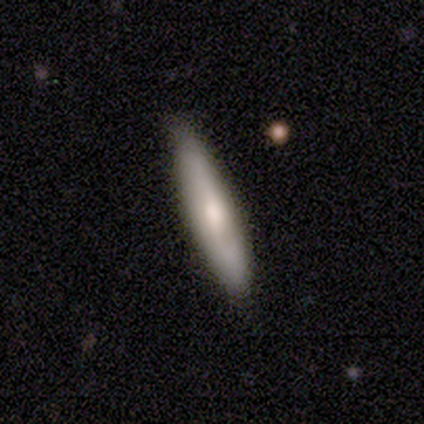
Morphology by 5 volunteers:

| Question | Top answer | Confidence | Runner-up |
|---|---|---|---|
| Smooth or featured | featured or disk | 60% | smooth (40%) |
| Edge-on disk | yes | 67% | no (33%) |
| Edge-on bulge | boxy | 50% | tied: rounded (50%) |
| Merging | none | 60% | minor disturbance (40%) |